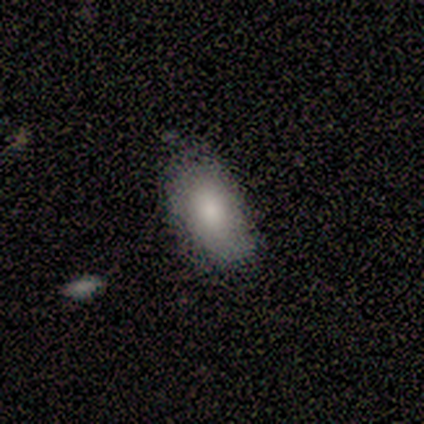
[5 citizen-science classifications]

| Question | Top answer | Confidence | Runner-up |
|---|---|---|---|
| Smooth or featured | smooth | 80% | featured or disk (20%) |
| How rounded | in between | 100% | — |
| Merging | none | 60% | minor disturbance (20%) |